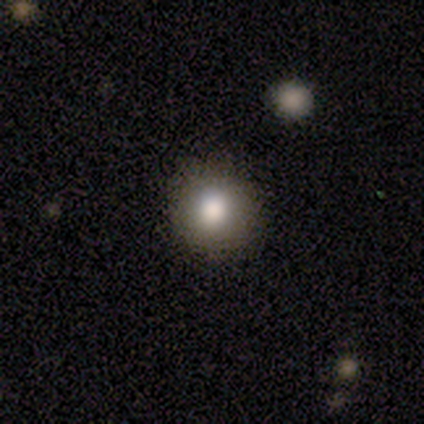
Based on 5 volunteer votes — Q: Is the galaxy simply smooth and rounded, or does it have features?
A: featured or disk — 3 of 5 (60%).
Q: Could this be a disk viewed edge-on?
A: no — 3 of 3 (100%).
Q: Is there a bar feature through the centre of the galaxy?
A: no — 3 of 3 (100%).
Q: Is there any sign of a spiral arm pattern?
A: no — 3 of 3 (100%).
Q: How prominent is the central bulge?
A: moderate — 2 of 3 (67%).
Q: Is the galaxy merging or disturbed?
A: none — 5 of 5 (100%).